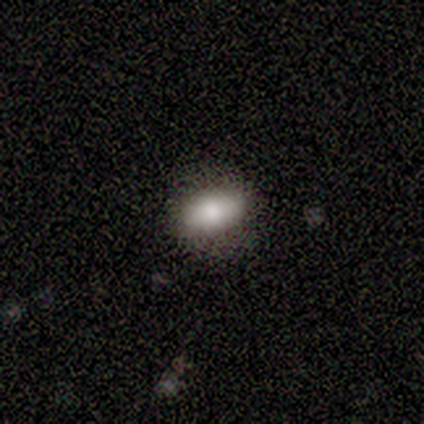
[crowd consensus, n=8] Overall: smooth (75%). How rounded: in between (100%). Merging: none (88%).